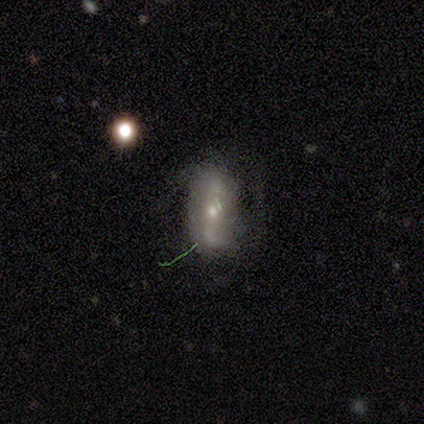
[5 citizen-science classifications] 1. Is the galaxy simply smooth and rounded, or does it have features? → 60% featured or disk, 40% smooth, 0% star or artifact.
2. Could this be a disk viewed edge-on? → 100% no, 0% yes.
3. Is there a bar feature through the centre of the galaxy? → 67% no, 33% weak, 0% strong.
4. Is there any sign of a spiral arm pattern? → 100% yes, 0% no.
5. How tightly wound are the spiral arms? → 67% loose, 33% medium, 0% tight.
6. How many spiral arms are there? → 67% 2, 33% can't tell, 0% 1, 0% 3, 0% 4, 0% more than 4.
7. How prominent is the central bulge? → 100% moderate, 0% dominant, 0% large, 0% small, 0% none.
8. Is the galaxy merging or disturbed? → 60% none, 40% minor disturbance, 0% major disturbance, 0% merger.